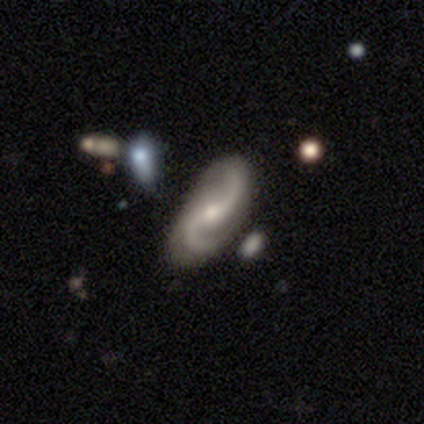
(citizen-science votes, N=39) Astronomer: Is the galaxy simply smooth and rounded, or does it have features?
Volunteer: featured or disk — 95%.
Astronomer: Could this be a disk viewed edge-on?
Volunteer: no — 95%.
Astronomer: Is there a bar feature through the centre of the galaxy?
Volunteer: no — 49% (runner-up: weak, 34%).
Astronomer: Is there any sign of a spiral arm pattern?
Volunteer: yes — 100%.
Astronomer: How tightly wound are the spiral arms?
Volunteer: loose — 63%.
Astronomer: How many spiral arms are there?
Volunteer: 2 — 94%.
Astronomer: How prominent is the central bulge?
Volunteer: small — 74%.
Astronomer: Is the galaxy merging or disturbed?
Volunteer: none — 76%.